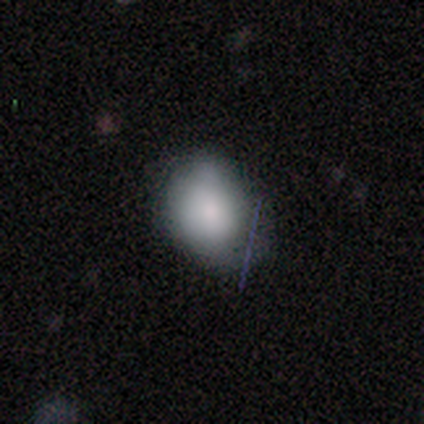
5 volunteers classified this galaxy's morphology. smooth_or_featured: smooth (p=0.80) [alt: featured or disk p=0.20]
how_rounded: in between (p=0.75) [alt: round p=0.25]
merging: minor disturbance (p=0.60) [alt: none p=0.40]